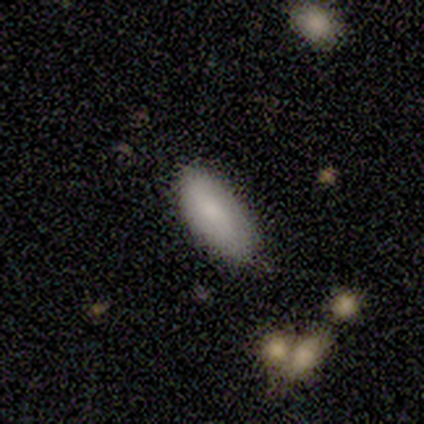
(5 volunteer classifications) This is clearly a smooth galaxy (80%). How rounded: clearly in between (100%). Merging: likely none (60%).